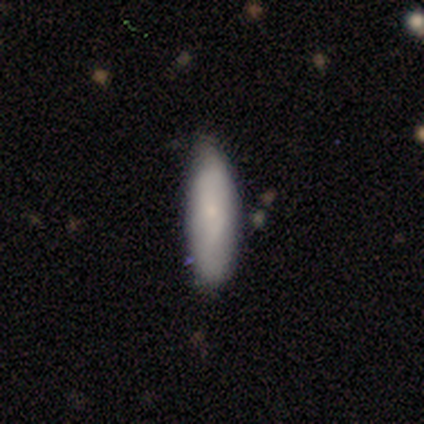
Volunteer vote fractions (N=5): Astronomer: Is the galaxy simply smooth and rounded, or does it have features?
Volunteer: smooth — 100%.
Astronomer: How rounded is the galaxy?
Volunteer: in between — 60% (runner-up: cigar-shaped, 40%).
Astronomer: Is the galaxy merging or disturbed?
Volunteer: none — 80%.